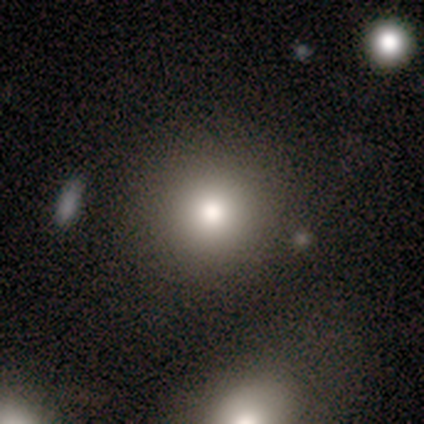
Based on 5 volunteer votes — This appears to be a smooth galaxy with no disk features (60%) that is round (100%). Merging: none (25%, tied with minor disturbance, major disturbance and merger).